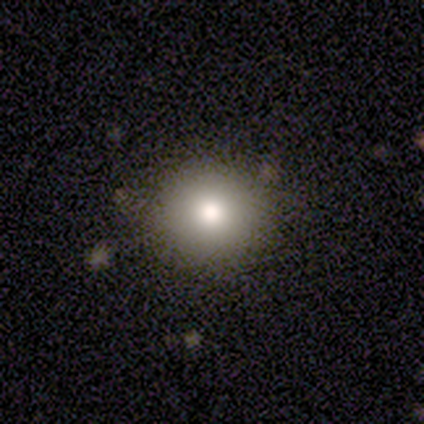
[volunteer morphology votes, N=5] Smooth or featured?
  - smooth: 60% *
  - featured or disk: 20%
  - star or artifact: 20%
How rounded?
  - round: 100% *
  - in between: 0%
  - cigar-shaped: 0%
Merging?
  - none: 100% *
  - minor disturbance: 0%
  - major disturbance: 0%
  - merger: 0%